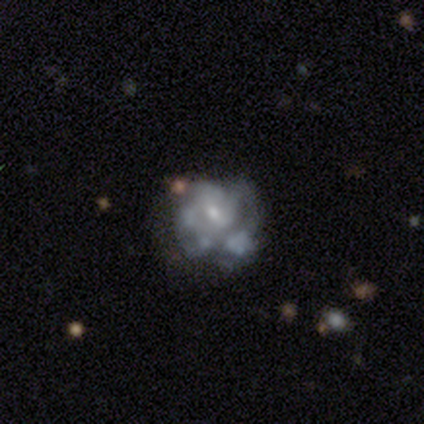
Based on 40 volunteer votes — Volunteers were most divided on "merging": none: 37%, minor disturbance: 26%, major disturbance: 24%, merger: 13%. More confident: edge-on disk — no (100%); smooth or featured — featured or disk (88%); bar — no (71%); spiral arms — no (69%); bulge size — small (57%).